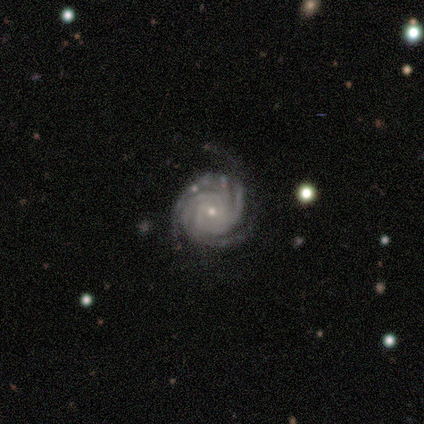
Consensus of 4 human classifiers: This appears to be a featured or disk galaxy (100%) with no bar (75%), 4 (75%) tight (100%) spiral arms (100%) and a small central bulge (75%). Merging: none (75%).